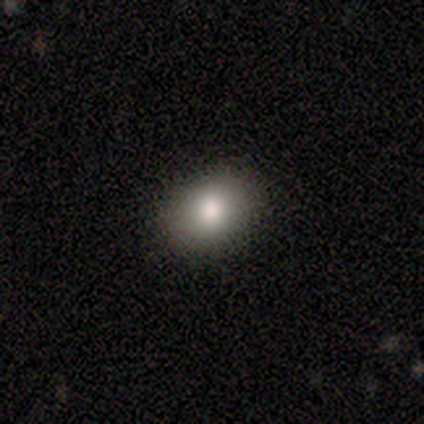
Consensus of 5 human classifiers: Smooth or featured?
  - smooth: 80% *
  - star or artifact: 20%
  - featured or disk: 0%
How rounded?
  - in between: 100% *
  - round: 0%
  - cigar-shaped: 0%
Merging?
  - none: 100% *
  - minor disturbance: 0%
  - major disturbance: 0%
  - merger: 0%